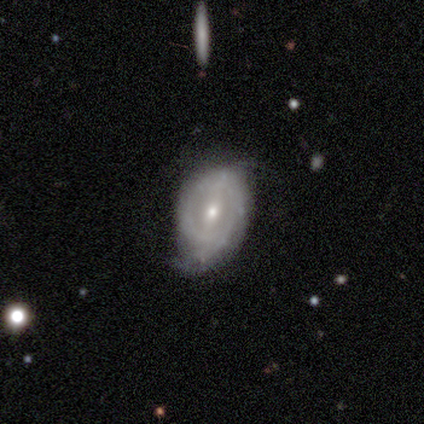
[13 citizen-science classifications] Q: Smooth or featured?
A: featured or disk (62%); runner-up: smooth (23%)
Q: Edge-on disk?
A: no (100%)
Q: Bar?
A: weak (62%); runner-up: strong (25%)
Q: Spiral arms?
A: yes (62%); runner-up: no (38%)
Q: Spiral winding?
A: tight (100%)
Q: Spiral arm count?
A: 2 (60%); runner-up: can't tell (40%)
Q: Bulge size?
A: moderate (62%); runner-up: small (38%)
Q: Merging?
A: minor disturbance (64%); runner-up: none (18%)